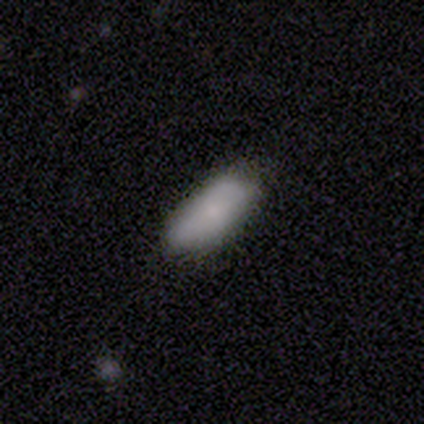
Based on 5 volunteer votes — Q: Smooth or featured?
A: smooth (100%)
Q: How rounded?
A: in between (100%)
Q: Merging?
A: none (60%); runner-up: minor disturbance (40%)